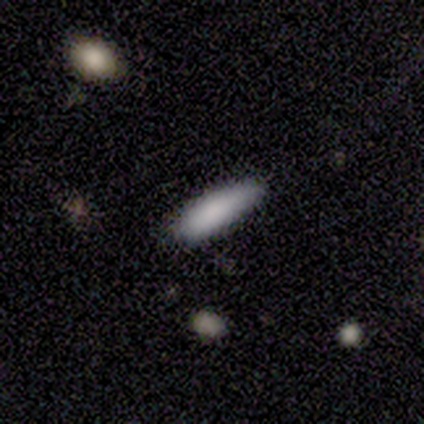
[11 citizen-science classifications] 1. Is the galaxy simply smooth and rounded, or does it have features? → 91% smooth, 9% featured or disk, 0% star or artifact.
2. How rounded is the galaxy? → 70% cigar-shaped, 30% in between, 0% round.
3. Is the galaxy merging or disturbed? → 82% none, 9% minor disturbance, 9% major disturbance, 0% merger.